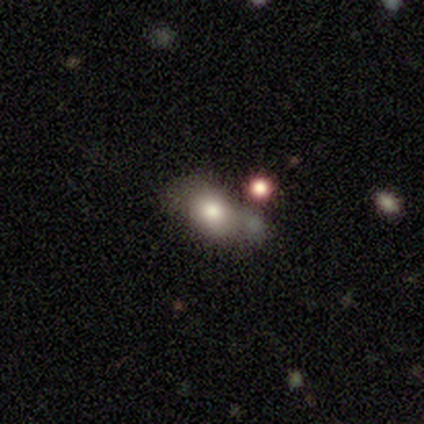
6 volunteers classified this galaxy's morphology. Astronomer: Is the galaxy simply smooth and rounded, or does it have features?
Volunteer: smooth — 83%.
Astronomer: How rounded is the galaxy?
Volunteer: in between — 60% (runner-up: round, 40%).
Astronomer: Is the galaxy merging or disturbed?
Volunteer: none — 40%, tied with minor disturbance at 40%.